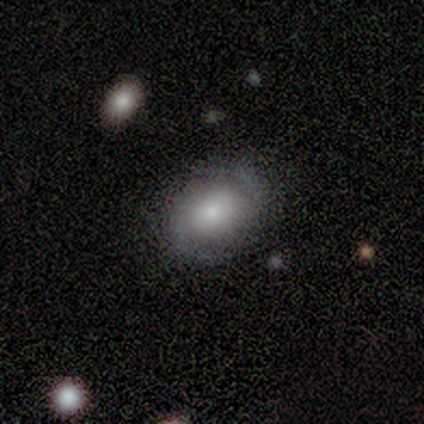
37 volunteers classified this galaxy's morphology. featured or disk 51%, smooth 43%, star or artifact 5%. Down the decision tree: edge-on disk — no (95%); bar — no (50%); spiral arms — yes (100%); spiral arm count — 2 (89%); spiral winding — medium (44%); bulge size — moderate (28%, tied with small); merging — none (60%).